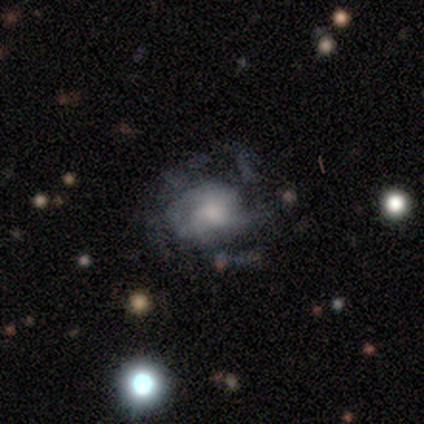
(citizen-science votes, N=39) Smooth or featured? featured or disk (72%)
Edge-on disk? no (100%)
Bar? no (89%)
Spiral arms? yes (61%)
Spiral winding? medium (53%)
Spiral arm count? can't tell (65%)
Bulge size? moderate (57%)
Merging? major disturbance (44%)